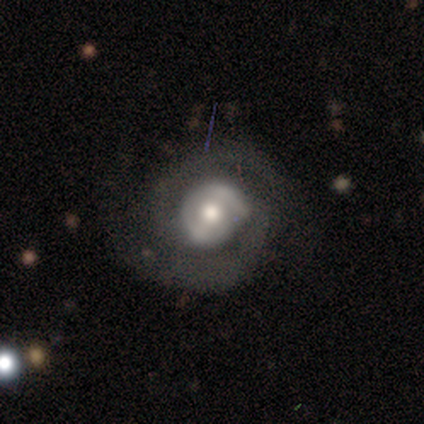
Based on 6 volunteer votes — A featured or disk galaxy (100%) with no bar (50%), 2 (100%) tight (50%) spiral arms (100%) and a moderate central bulge (50%).

Vote fractions:
- Smooth or featured? featured or disk: 100% / smooth: 0% / star or artifact: 0%
- Edge-on disk? no: 100% / yes: 0%
- Bar? no: 50% / strong: 33% / weak: 17%
- Spiral arms? yes: 100% / no: 0%
- Spiral winding? tight: 50% / medium: 33% / loose: 17%
- Spiral arm count? 2: 100% / 1: 0% / 3: 0% / 4: 0% / more than 4: 0% / can't tell: 0%
- Bulge size? moderate: 50% / small: 33% / large: 17% / dominant: 0% / none: 0%
- Merging? none: 50% / minor disturbance: 33% / major disturbance: 17% / merger: 0%